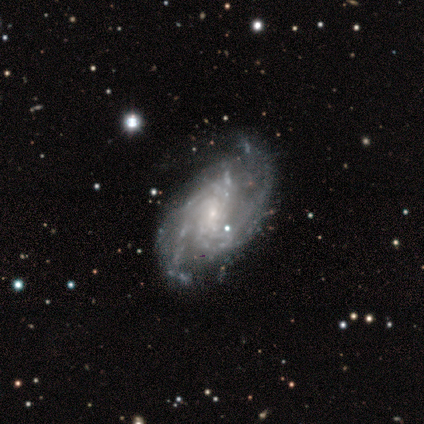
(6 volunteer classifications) Overall: featured or disk (100%). Edge-on disk: no (100%). Bar: weak (50%, tied with no). Spiral arms: yes (100%). Spiral arm count: 2 (33%, tied with can't tell). Spiral winding: medium (67%; tight 33%). Bulge size: small (67%). Merging: none (67%; minor disturbance 33%).